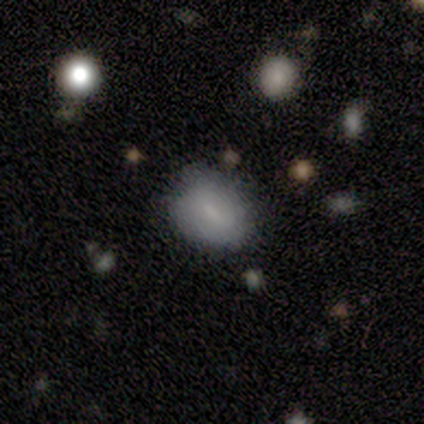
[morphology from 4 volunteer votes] Overall: smooth (50%, tied with featured or disk). How rounded: round (100%). Merging: none (100%).